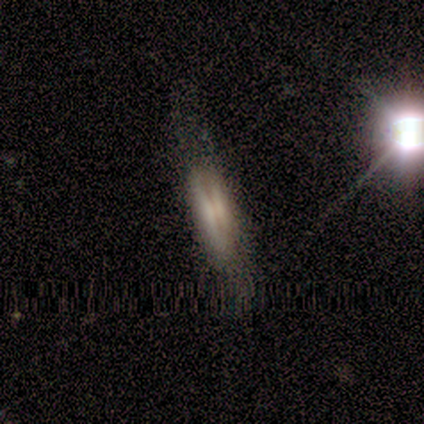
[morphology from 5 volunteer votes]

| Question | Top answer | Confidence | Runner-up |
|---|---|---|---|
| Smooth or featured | smooth | 80% | featured or disk (20%) |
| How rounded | in between | 50% | tied: cigar-shaped (50%) |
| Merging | none | 60% | minor disturbance (20%) |